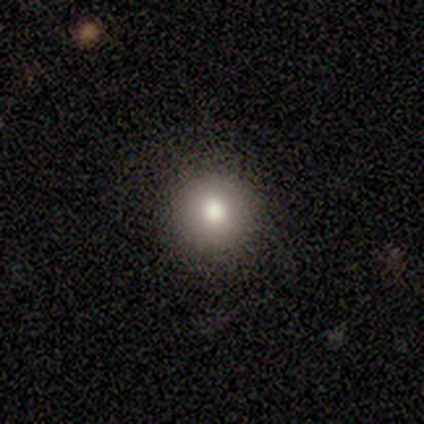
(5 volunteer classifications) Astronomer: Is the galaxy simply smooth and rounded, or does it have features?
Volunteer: smooth — 60% (runner-up: star or artifact, 40%).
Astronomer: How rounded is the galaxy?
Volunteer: round — 100%.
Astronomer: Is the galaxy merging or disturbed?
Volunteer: none — 100%.